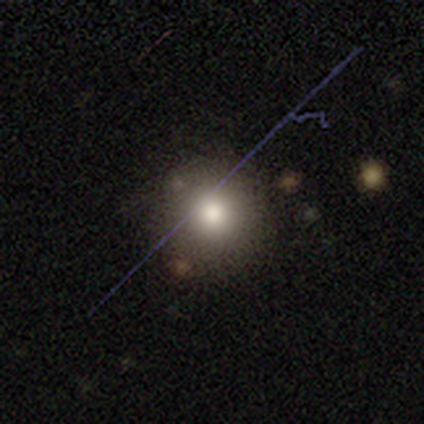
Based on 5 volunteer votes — This is likely a featured or disk galaxy (60%). It is clearly not viewed edge-on (100%). Bar: clearly no (100%). Spiral arm pattern: clearly no (100%). Central bulge: likely moderate (67%). Merging: possibly none (50%, tied with minor disturbance).